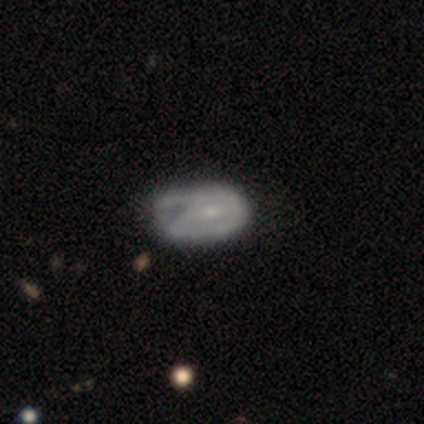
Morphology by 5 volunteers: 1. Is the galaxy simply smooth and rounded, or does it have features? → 80% featured or disk, 20% smooth, 0% star or artifact.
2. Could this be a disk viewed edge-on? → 100% no, 0% yes.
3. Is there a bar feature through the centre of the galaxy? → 50% weak (tied), 50% no (tied), 0% strong.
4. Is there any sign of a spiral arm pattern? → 75% no, 25% yes.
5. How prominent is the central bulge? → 75% none, 25% small, 0% dominant, 0% large, 0% moderate.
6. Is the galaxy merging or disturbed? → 80% minor disturbance, 20% major disturbance, 0% none, 0% merger.